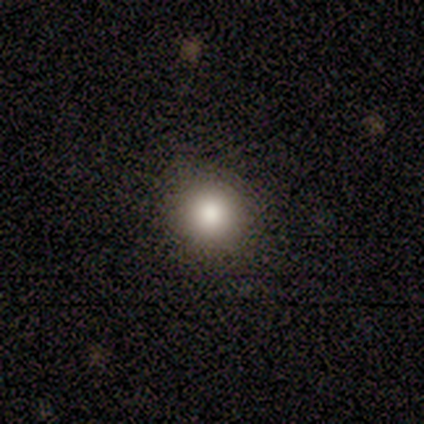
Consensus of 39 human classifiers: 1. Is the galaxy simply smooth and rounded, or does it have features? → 74% smooth, 15% featured or disk, 10% star or artifact.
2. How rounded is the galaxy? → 97% round, 3% in between, 0% cigar-shaped.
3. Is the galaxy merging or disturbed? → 100% none, 0% minor disturbance, 0% major disturbance, 0% merger.